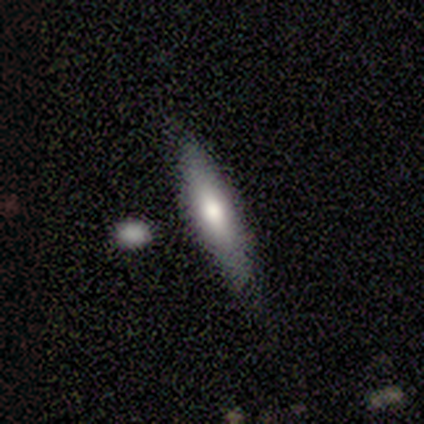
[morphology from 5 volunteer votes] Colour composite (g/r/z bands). It shows a smooth galaxy with no disk features (60%) that is cigar-shaped (67%). Merging: none (60%).